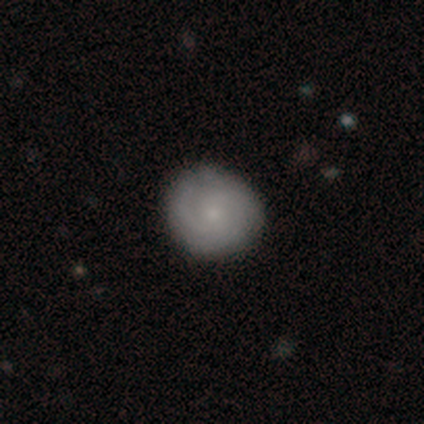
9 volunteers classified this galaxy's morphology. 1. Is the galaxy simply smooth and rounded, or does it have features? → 67% featured or disk, 22% smooth, 11% star or artifact.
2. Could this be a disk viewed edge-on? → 100% no, 0% yes.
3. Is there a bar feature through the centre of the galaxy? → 100% no, 0% strong, 0% weak.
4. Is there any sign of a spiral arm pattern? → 100% yes, 0% no.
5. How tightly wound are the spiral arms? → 67% tight, 33% medium, 0% loose.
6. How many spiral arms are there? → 67% can't tell, 33% 2, 0% 1, 0% 3, 0% 4, 0% more than 4.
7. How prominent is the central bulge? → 83% small, 17% none, 0% dominant, 0% large, 0% moderate.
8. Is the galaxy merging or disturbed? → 75% none, 12% minor disturbance, 12% major disturbance, 0% merger.